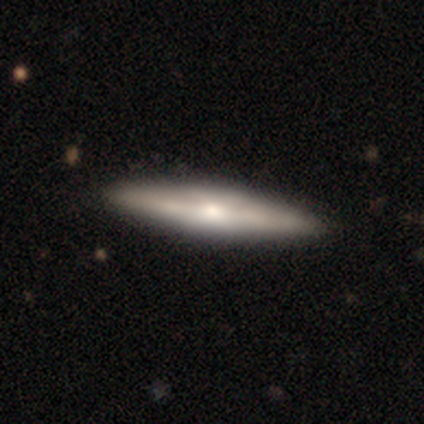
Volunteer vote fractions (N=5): Q: Smooth or featured?
A: featured or disk (80%); runner-up: star or artifact (20%)
Q: Edge-on disk?
A: yes (100%)
Q: Edge-on bulge?
A: rounded (100%)
Q: Merging?
A: none (100%)